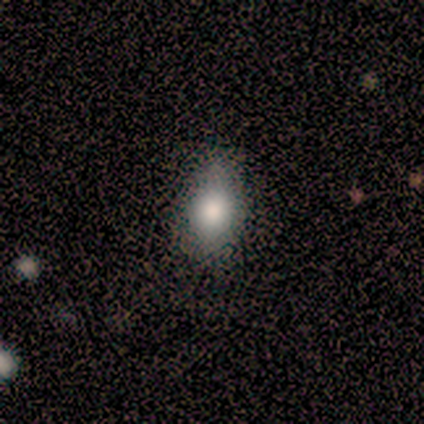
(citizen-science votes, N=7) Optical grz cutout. It shows a smooth galaxy with no disk features (43%, tied with star or artifact) that is in between round and cigar-shaped (100%). Merging: minor disturbance (75%).